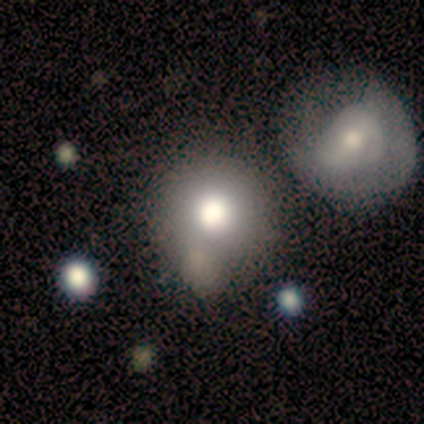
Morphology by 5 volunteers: Smooth or featured?
  - smooth: 100% *
  - featured or disk: 0%
  - star or artifact: 0%
How rounded?
  - round: 100% *
  - in between: 0%
  - cigar-shaped: 0%
Merging?
  - none: 100% *
  - minor disturbance: 0%
  - major disturbance: 0%
  - merger: 0%